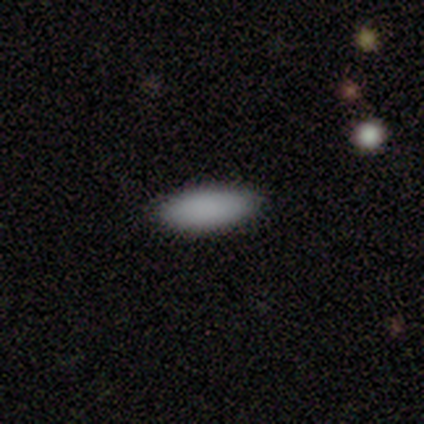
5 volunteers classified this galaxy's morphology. This appears to be a smooth galaxy with no disk features (80%) that is in between round and cigar-shaped (100%). Merging: none (100%).